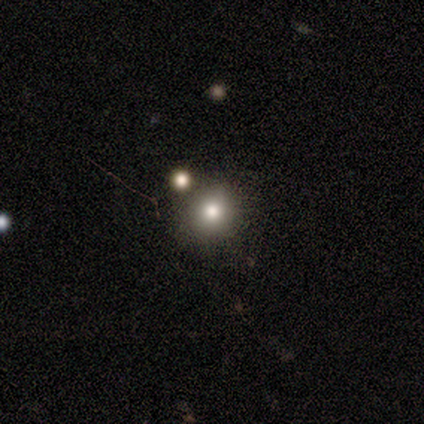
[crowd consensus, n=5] Volunteers were most divided on "merging": merger: 50%, none: 25%, minor disturbance: 25%, major disturbance: 0%. More confident: how rounded — round (100%); smooth or featured — smooth (80%).